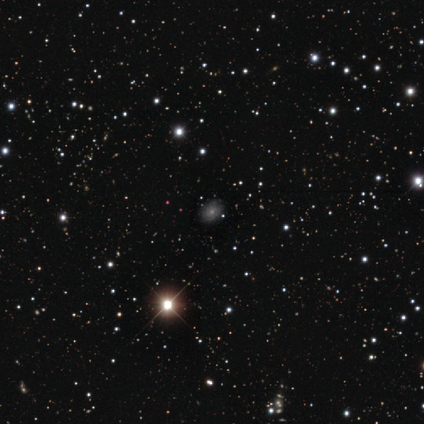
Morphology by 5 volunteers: Smooth or featured: featured or disk — 60% (smooth — 40%)
Edge-on disk: no — 100%
Bar: no — 100%
Spiral arms: yes — 100%
Spiral winding: medium — 67% (tight — 33%)
Spiral arm count: 2 — 33% (tied with 4 — 33%; can't tell — 33%)
Bulge size: moderate — 67% (small — 33%)
Merging: none — 100%